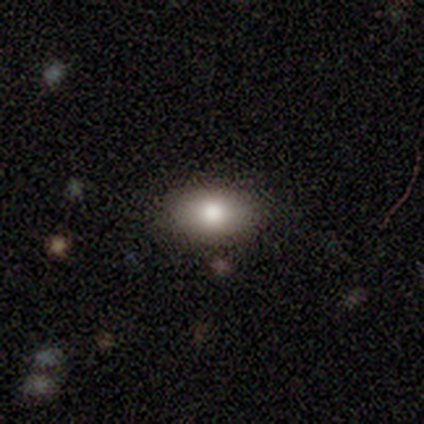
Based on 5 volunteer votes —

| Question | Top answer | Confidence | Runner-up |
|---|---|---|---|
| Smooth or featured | smooth | 80% | featured or disk (20%) |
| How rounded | in between | 100% | — |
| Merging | none | 100% | — |